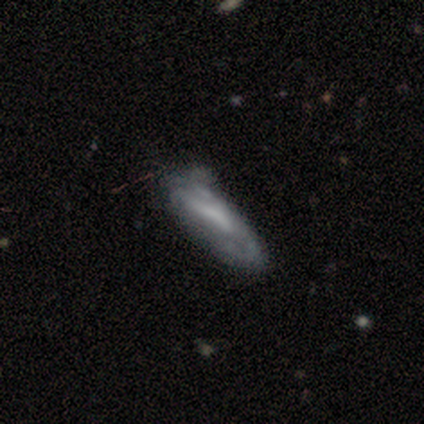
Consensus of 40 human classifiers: This appears to be a featured or disk galaxy (52%) with a weak bar (44%), loose (62%) spiral arms (50%, tied with no) and a moderate central bulge (38%, tied with none). Merging: minor disturbance (28%).